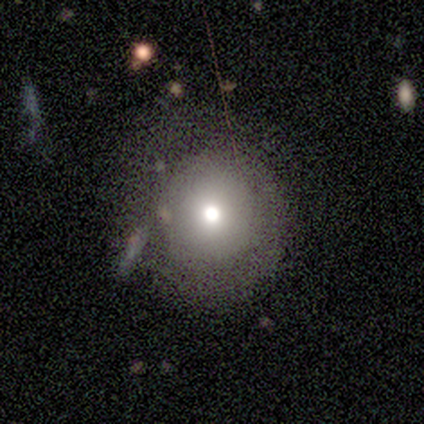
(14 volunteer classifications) smooth-or-featured: smooth: 71% | featured or disk: 21% | star or artifact: 7%
  how-rounded: round: 80% | in between: 20% | cigar-shaped: 0%
  merging: none: 69% | minor disturbance: 15% | major disturbance: 15% | merger: 0%